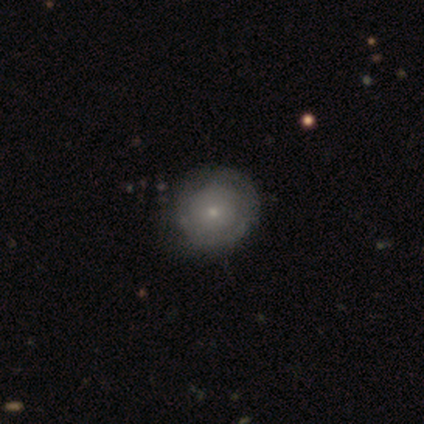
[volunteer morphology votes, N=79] A featured or disk galaxy (48%) with no bar (89%), tight (70%) spiral arms (53%) and a small central bulge (76%).

Vote fractions:
- Smooth or featured? featured or disk: 48% / smooth: 47% / star or artifact: 5%
- Edge-on disk? no: 100% / yes: 0%
- Bar? no: 89% / weak: 8% / strong: 3%
- Spiral arms? yes: 53% / no: 47%
- Spiral winding? tight: 70% / medium: 20% / loose: 10%
- Spiral arm count? can't tell: 55% / 2: 25% / 1: 20% / 3: 0% / 4: 0% / more than 4: 0%
- Bulge size? small: 76% / moderate: 18% / dominant: 3% / large: 3% / none: 0%
- Merging? none: 47% / minor disturbance: 15% / major disturbance: 1% / merger: 0%